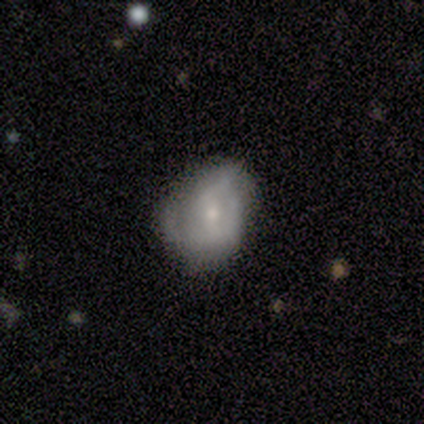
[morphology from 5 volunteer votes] smooth-or-featured: smooth: 60% | featured or disk: 40% | star or artifact: 0%
  how-rounded: round: 100% | in between: 0% | cigar-shaped: 0%
  merging: minor disturbance: 40% (tied) | major disturbance: 40% (tied) | none: 20% | merger: 0%